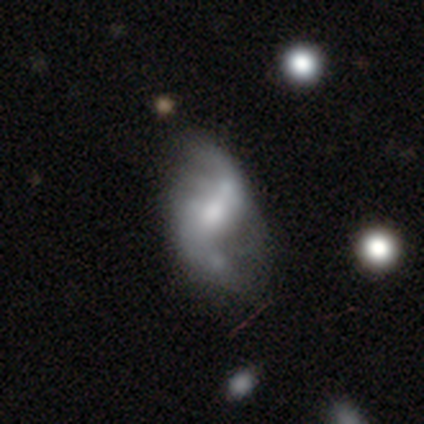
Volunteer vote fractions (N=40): Volunteers were most divided on "bulge size" (2-way tie): moderate: 31%, small: 31%, large: 25%, none: 12%, dominant: 0%. Remaining: edge-on disk — no (94%); spiral arms — yes (94%); smooth or featured — featured or disk (85%); spiral arm count — 2 (80%); spiral winding — loose (77%); bar — strong (41%); merging — major disturbance (28%).